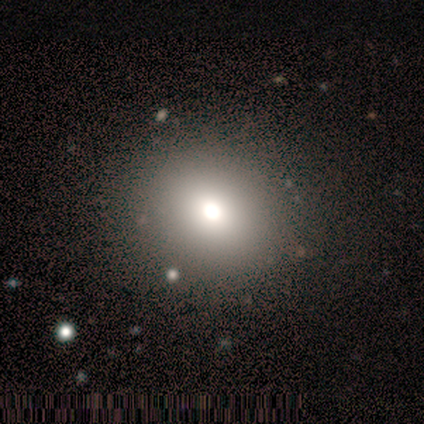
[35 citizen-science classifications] A smooth galaxy with no disk features (66%) that is round (74%). Merging: none (86%).